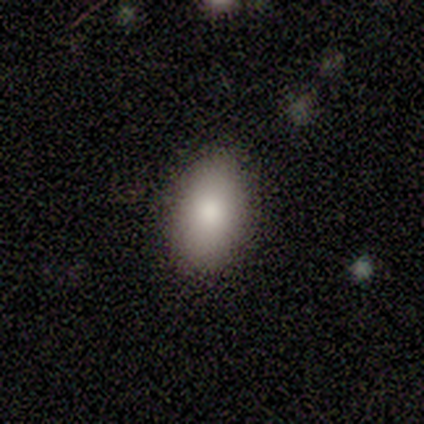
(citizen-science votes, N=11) smooth 91%, featured or disk 9%, star or artifact 0%. Down the decision tree: how rounded — in between (90%); merging — none (82%).